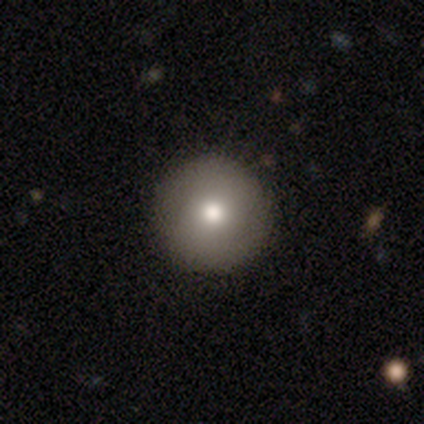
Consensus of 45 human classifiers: This appears to be a smooth galaxy with no disk features (71%) that is round (100%). Merging: none (95%).